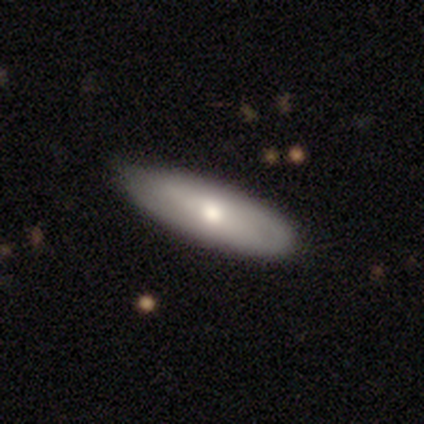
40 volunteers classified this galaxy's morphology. A smooth galaxy with no disk features (52%) that is in between round and cigar-shaped (71%).

Vote fractions:
- Smooth or featured? smooth: 52% / featured or disk: 42% / star or artifact: 5%
- How rounded? in between: 71% / cigar-shaped: 29% / round: 0%
- Merging? none: 82% / minor disturbance: 16% / merger: 3% / major disturbance: 0%